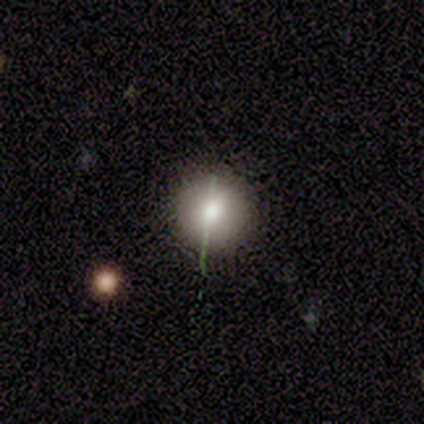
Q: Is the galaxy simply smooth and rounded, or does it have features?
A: smooth — 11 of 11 (100%).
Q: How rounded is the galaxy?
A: round — 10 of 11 (91%).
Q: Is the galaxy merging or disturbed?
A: none — 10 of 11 (91%).